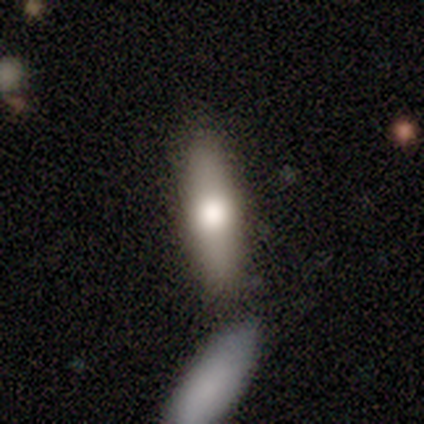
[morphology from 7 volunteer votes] Smooth or featured: smooth — 71% (featured or disk — 29%)
How rounded: cigar-shaped — 60% (in between — 40%)
Merging: none — 57% (minor disturbance — 29%)